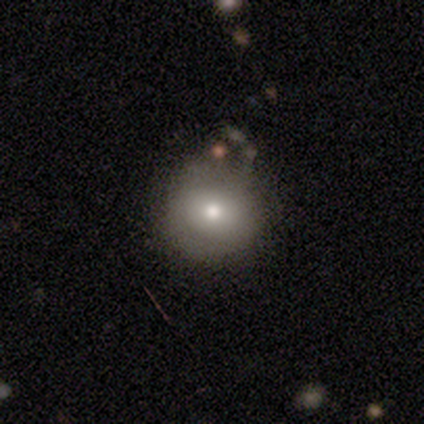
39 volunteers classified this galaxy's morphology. smooth 67%, featured or disk 23%, star or artifact 10%. Down the decision tree: how rounded — round (92%); merging — none (77%).